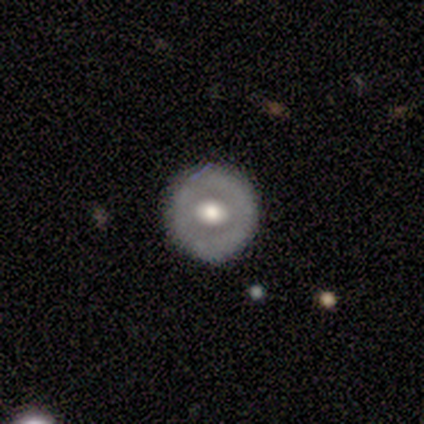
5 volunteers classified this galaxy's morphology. Q: Smooth or featured?
A: featured or disk (80%); runner-up: smooth (20%)
Q: Edge-on disk?
A: no (100%)
Q: Bar?
A: no (100%)
Q: Spiral arms?
A: no (100%)
Q: Bulge size?
A: large (50%); tied with: moderate (50%)
Q: Merging?
A: none (100%)